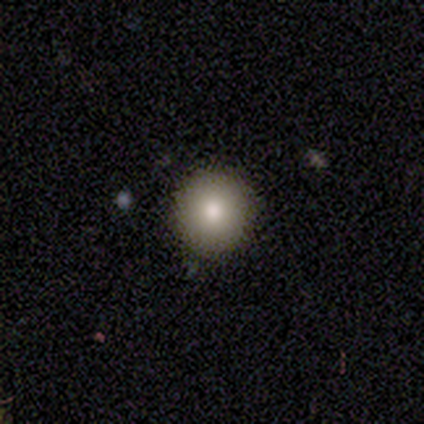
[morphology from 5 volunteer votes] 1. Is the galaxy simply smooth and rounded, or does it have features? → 100% smooth, 0% featured or disk, 0% star or artifact.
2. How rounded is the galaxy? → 100% round, 0% in between, 0% cigar-shaped.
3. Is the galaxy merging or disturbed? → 100% none, 0% minor disturbance, 0% major disturbance, 0% merger.